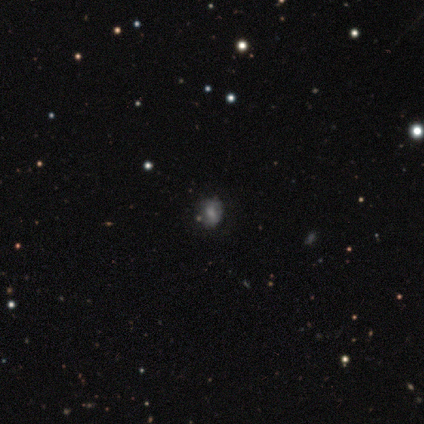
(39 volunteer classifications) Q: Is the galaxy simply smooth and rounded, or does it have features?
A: smooth — 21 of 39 (54%).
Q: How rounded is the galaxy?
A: round — 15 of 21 (71%).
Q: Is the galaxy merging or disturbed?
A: none — 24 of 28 (86%).